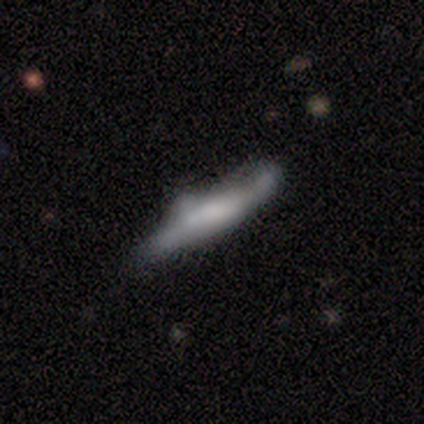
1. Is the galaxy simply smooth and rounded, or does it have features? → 40% smooth (tied), 40% featured or disk (tied), 20% star or artifact.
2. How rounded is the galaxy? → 50% in between (tied), 50% cigar-shaped (tied), 0% round.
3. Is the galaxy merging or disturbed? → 25% none (tied), 25% minor disturbance (tied), 25% major disturbance (tied), 25% merger (tied).